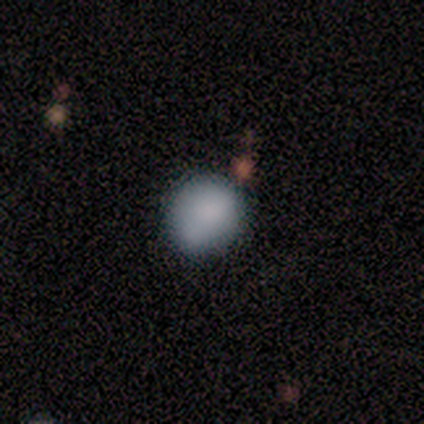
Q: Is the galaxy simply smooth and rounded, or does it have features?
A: smooth — 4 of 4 (100%).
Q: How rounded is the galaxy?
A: round — 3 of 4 (75%).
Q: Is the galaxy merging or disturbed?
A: none — 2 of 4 (50%, tied with merger).